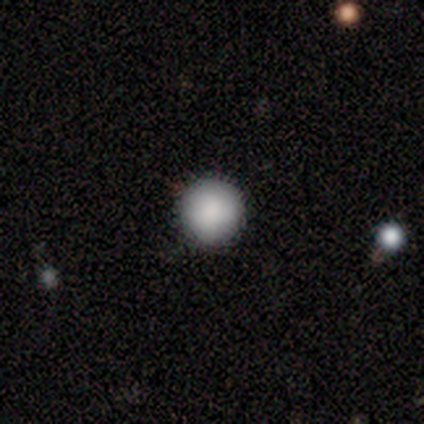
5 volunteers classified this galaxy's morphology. Smooth or featured? smooth (100%)
How rounded? round (100%)
Merging? none (80%)